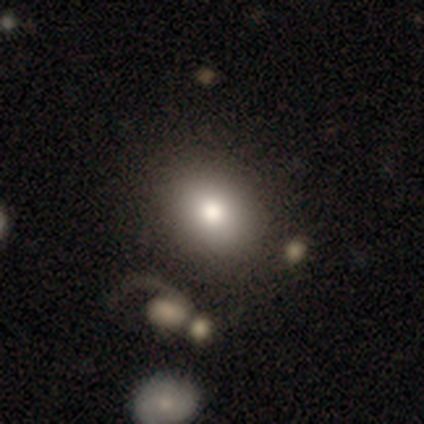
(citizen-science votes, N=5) Morphology: type=smooth (60%); roundness=in between (67%); merging=none (100%).